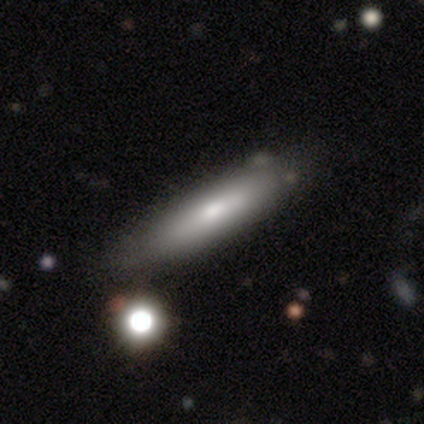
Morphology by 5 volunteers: smooth-or-featured: smooth: 80% | featured or disk: 20% | star or artifact: 0%
  how-rounded: cigar-shaped: 75% | in between: 25% | round: 0%
  merging: none: 80% | merger: 20% | minor disturbance: 0% | major disturbance: 0%